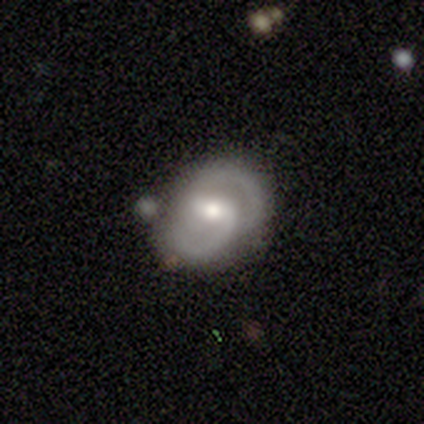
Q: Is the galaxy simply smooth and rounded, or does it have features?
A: featured or disk — 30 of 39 (77%).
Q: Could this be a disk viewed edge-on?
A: no — 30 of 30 (100%).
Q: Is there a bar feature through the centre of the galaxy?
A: weak — 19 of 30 (63%).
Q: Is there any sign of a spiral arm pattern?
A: yes — 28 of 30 (93%).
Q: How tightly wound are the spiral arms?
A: medium — 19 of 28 (68%).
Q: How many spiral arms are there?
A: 2 — 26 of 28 (93%).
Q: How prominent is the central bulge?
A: moderate — 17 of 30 (57%).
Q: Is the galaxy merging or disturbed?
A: none — 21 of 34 (62%).